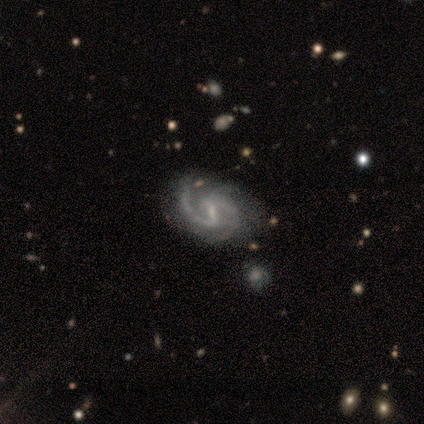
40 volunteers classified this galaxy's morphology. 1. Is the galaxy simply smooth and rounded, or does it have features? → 95% featured or disk, 2% smooth, 2% star or artifact.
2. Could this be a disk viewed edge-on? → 100% no, 0% yes.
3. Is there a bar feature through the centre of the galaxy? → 55% weak, 42% strong, 3% no.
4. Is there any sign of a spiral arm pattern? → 100% yes, 0% no.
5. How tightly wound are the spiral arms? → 79% medium, 11% tight, 11% loose.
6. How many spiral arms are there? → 76% 2, 11% 1, 11% 3, 3% can't tell, 0% 4, 0% more than 4.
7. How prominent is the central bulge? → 66% small, 18% moderate, 16% none, 0% dominant, 0% large.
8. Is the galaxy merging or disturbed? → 69% none, 26% minor disturbance, 3% major disturbance, 3% merger.